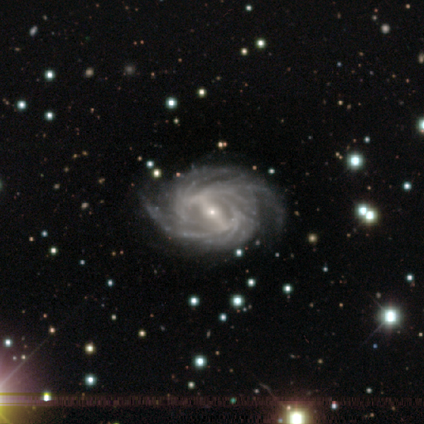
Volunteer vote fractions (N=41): featured or disk 98%, star or artifact 2%, smooth 0%. Down the decision tree: edge-on disk — no (98%); bar — strong (79%); spiral arms — yes (100%); spiral arm count — more than 4 (46%); spiral winding — tight (51%); bulge size — small (82%); merging — none (68%).